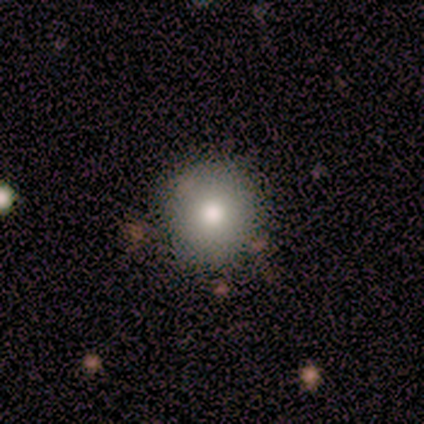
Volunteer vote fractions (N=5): This is likely a smooth galaxy (60%). How rounded: clearly round (100%). Merging: clearly none (100%).